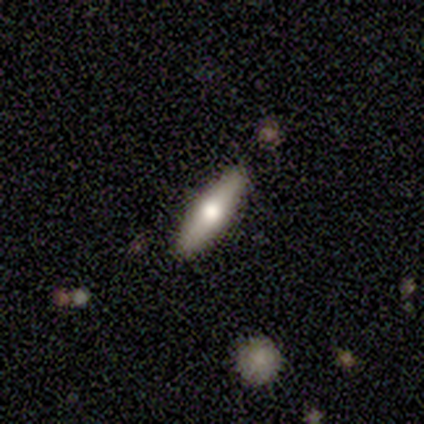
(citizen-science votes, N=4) This appears to be a smooth galaxy with no disk features (75%) that is cigar-shaped (100%). Merging: none (100%).